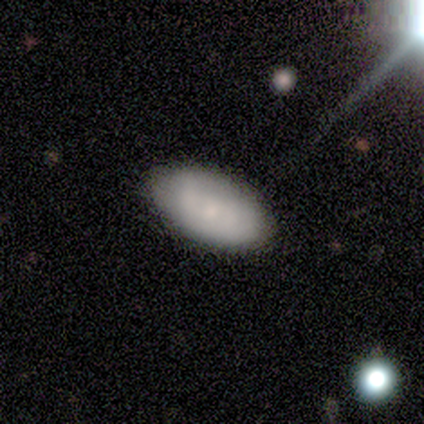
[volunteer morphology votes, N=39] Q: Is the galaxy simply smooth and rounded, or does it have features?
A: smooth — 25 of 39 (64%).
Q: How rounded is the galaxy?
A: in between — 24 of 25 (96%).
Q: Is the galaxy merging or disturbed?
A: none — 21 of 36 (58%).